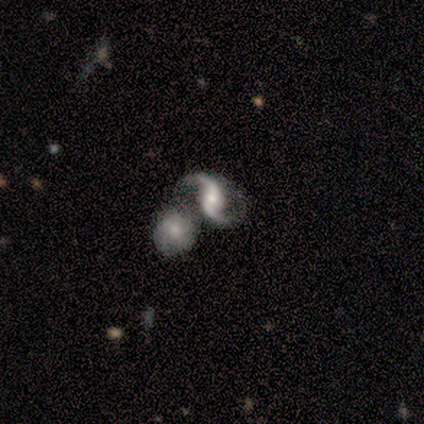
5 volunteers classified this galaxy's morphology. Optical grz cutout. It shows a featured or disk galaxy (100%) with a weak bar (60%), 2 (100%) loose (60%) spiral arms (100%) and a moderate central bulge (60%). Merging: merger (40%).